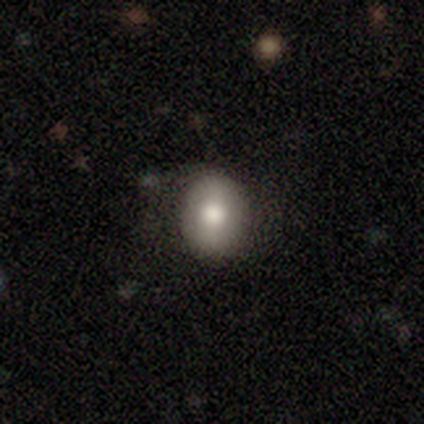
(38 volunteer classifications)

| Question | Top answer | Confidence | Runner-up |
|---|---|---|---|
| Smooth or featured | smooth | 76% | featured or disk (13%) |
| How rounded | in between | 62% | round (38%) |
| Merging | none | 79% | minor disturbance (21%) |